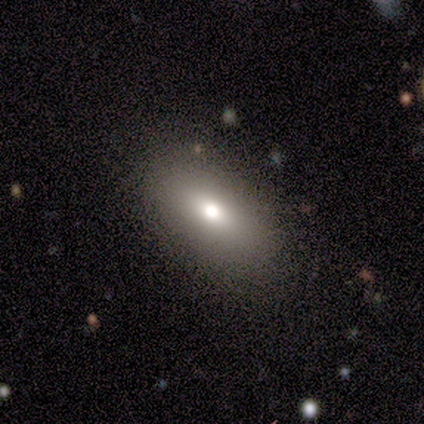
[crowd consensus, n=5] This appears to be a smooth galaxy with no disk features (60%) that is in between round and cigar-shaped (100%). Merging: none (100%).